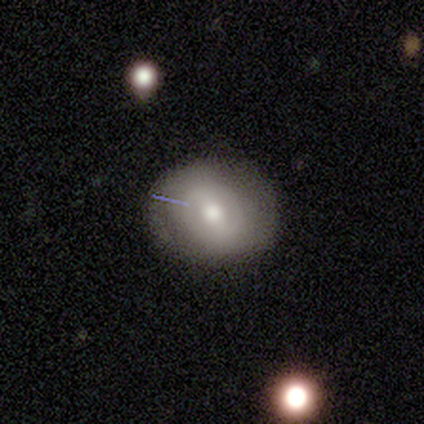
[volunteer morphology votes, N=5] Smooth or featured? 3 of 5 (60%) said featured or disk. Edge-on disk? 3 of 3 (100%) said no. Bar? 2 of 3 (67%) said no. Spiral arms? 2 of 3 (67%) said no. Bulge size? 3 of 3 (100%) said moderate. Merging? 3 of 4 (75%) said none.